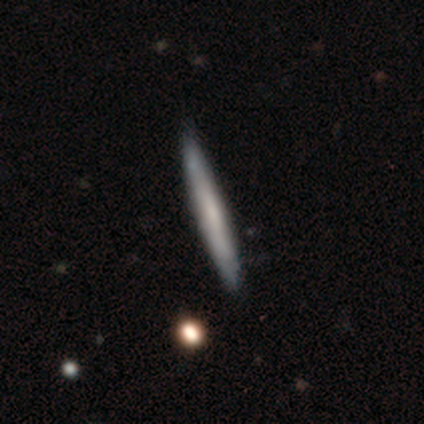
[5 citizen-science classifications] Smooth or featured? smooth (80%)
How rounded? cigar-shaped (100%)
Merging? none (100%)